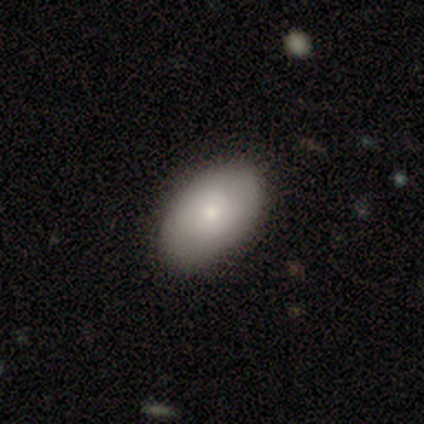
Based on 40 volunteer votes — smooth_or_featured: smooth (p=0.65) [alt: featured or disk p=0.30]
how_rounded: in between (p=0.96) [alt: round p=0.04]
merging: none (p=0.82) [alt: minor disturbance p=0.16]